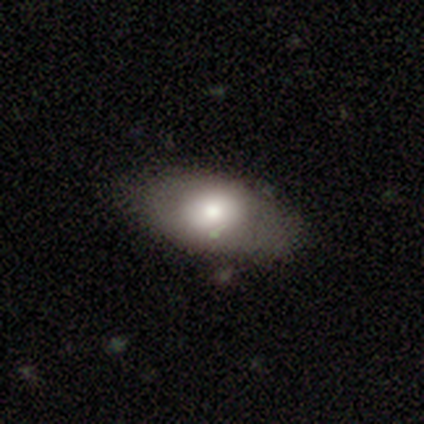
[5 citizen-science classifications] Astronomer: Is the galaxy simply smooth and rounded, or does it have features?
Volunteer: smooth — 80%.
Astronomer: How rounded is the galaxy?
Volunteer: in between — 100%.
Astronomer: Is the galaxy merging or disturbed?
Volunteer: none — 100%.